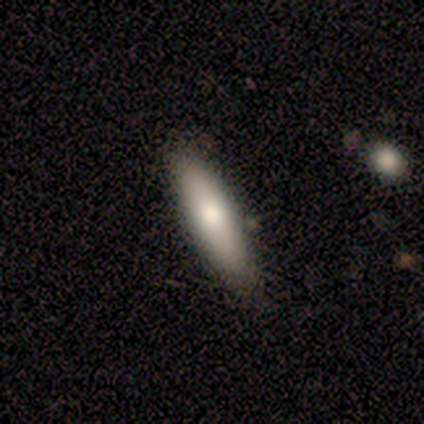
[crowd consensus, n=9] This appears to be a smooth galaxy with no disk features (78%) that is cigar-shaped (86%). Merging: none (75%).